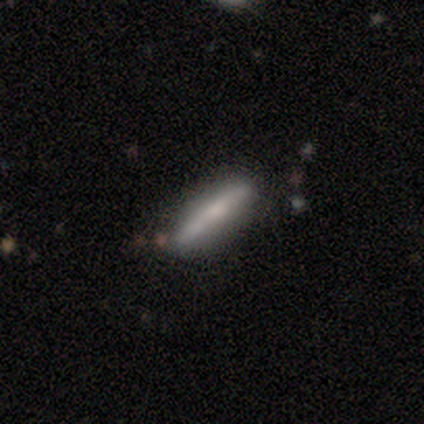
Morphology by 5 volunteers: Smooth or featured: featured or disk — 60% (smooth — 40%)
Edge-on disk: yes — 100%
Edge-on bulge: boxy — 33% (tied with none — 33%; rounded — 33%)
Merging: none — 80% (minor disturbance — 20%)